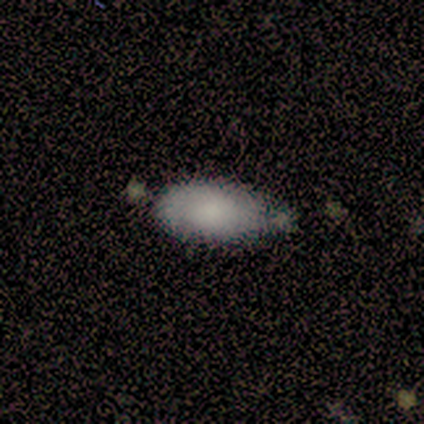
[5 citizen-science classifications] Q: Smooth or featured?
A: smooth (60%); runner-up: featured or disk (20%)
Q: How rounded?
A: in between (100%)
Q: Merging?
A: none (75%); runner-up: merger (25%)